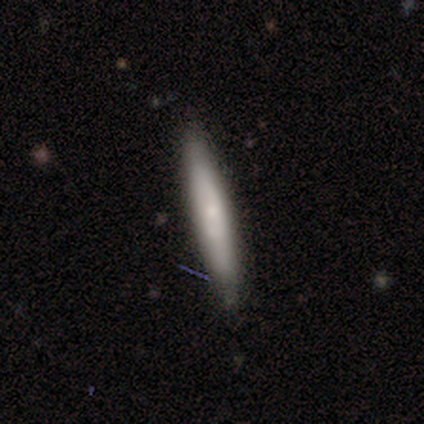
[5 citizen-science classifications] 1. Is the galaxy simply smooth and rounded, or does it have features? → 60% featured or disk, 40% smooth, 0% star or artifact.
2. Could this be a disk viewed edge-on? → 100% yes, 0% no.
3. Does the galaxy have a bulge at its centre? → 67% none, 33% rounded, 0% boxy.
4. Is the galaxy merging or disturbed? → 80% none, 20% minor disturbance, 0% major disturbance, 0% merger.